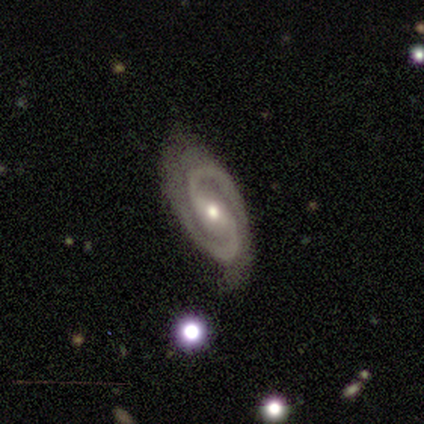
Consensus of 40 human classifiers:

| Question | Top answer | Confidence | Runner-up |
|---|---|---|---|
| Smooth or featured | featured or disk | 92% | star or artifact (8%) |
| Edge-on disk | no | 100% | — |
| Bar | strong | 38% | weak (35%) |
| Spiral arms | yes | 100% | — |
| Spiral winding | tight | 46% | medium (43%) |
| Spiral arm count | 2 | 97% | 3 (3%) |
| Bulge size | moderate | 57% | small (38%) |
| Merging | none | 70% | minor disturbance (22%) |